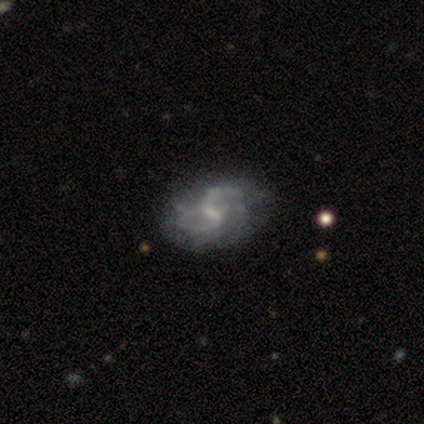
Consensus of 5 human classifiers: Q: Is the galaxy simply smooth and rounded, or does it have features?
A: featured or disk — 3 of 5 (60%).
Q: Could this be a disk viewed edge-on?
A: no — 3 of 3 (100%).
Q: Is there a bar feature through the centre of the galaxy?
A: weak — 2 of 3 (67%).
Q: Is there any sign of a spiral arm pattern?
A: yes — 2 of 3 (67%).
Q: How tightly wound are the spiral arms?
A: tight — 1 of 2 (50%, tied with loose).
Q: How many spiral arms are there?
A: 4 — 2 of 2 (100%).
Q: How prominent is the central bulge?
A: none — 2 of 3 (67%).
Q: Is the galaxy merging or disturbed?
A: none — 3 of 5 (60%).